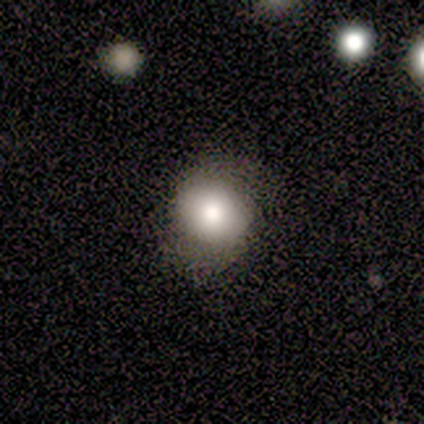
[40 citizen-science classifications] This appears to be a smooth galaxy with no disk features (68%) that is round (74%). Merging: none (56%).